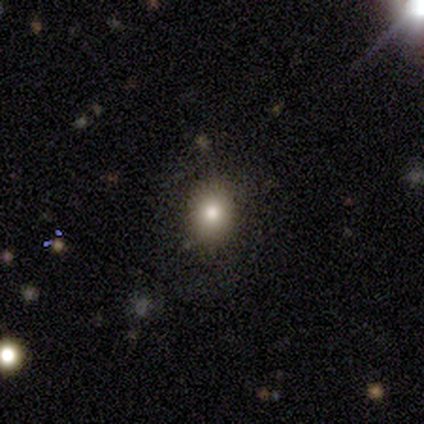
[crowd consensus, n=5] smooth-or-featured: smooth: 80% | star or artifact: 20% | featured or disk: 0%
  how-rounded: round: 75% | in between: 25% | cigar-shaped: 0%
  merging: none: 100% | minor disturbance: 0% | major disturbance: 0% | merger: 0%